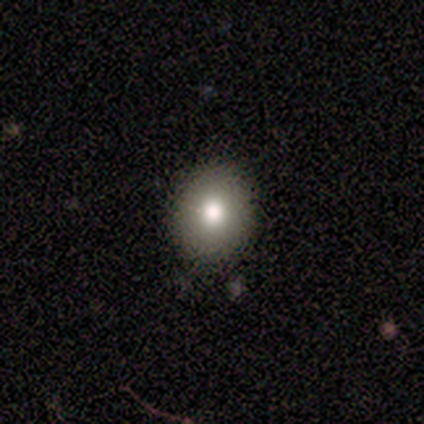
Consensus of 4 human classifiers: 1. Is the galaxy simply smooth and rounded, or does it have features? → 50% smooth, 25% featured or disk, 25% star or artifact.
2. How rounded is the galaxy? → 50% round (tied), 50% in between (tied), 0% cigar-shaped.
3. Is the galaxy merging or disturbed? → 67% none, 33% minor disturbance, 0% major disturbance, 0% merger.